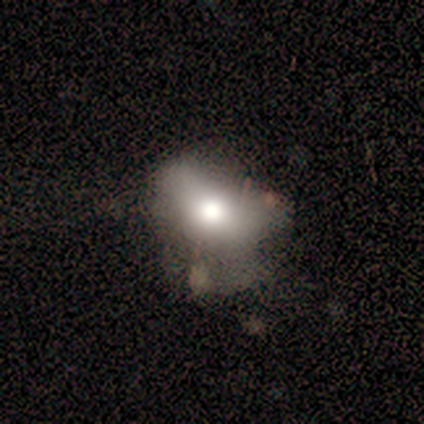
This is clearly a smooth galaxy (100%). How rounded: clearly round (80%). Merging: likely minor disturbance (60%).